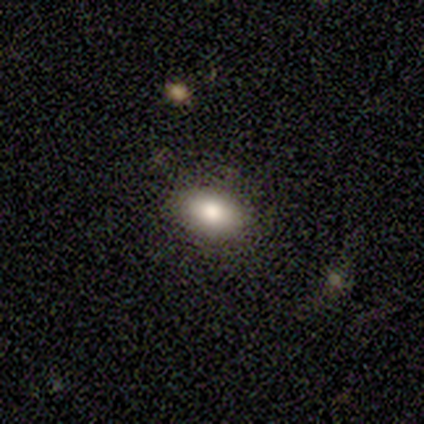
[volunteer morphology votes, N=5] Smooth or featured? smooth (80%)
How rounded? in between (100%)
Merging? none (100%)